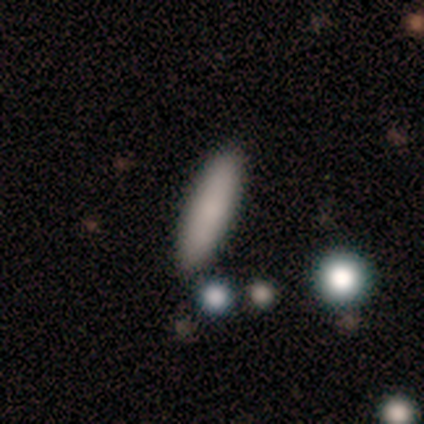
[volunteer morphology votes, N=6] A smooth galaxy with no disk features (83%) that is in between round and cigar-shaped (60%). Merging: none (83%).